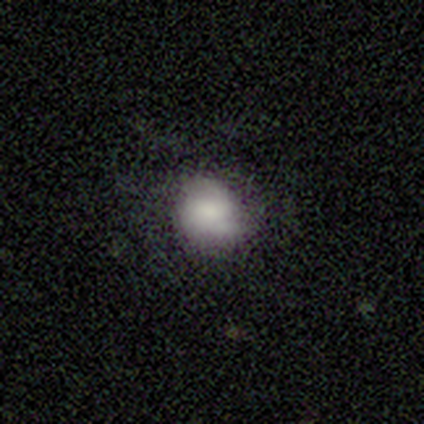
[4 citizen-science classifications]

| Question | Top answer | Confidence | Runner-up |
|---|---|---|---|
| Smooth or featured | smooth | 50% | featured or disk (25%) |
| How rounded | round | 100% | — |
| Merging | minor disturbance | 67% | none (33%) |